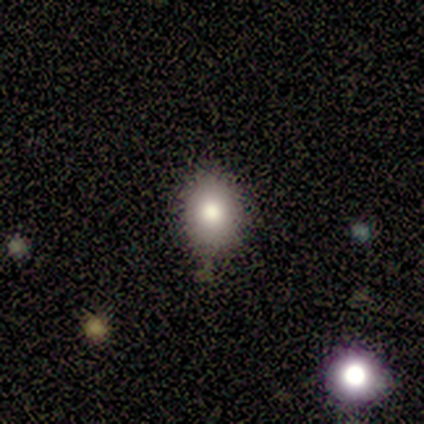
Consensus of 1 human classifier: A star or artifact, not a galaxy (100%).

Vote fractions:
- Smooth or featured? star or artifact: 100% / smooth: 0% / featured or disk: 0%